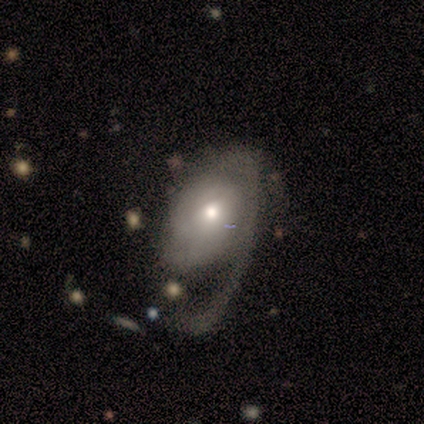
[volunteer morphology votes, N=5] Overall: smooth (60%; featured or disk 40%). How rounded: in between (100%). Merging: major disturbance (60%; none 40%).